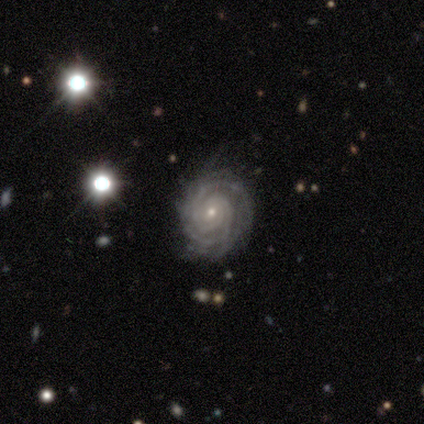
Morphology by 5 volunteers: A featured or disk galaxy (60%) with no bar (67%), more than 4 (67%) tight (67%) spiral arms (100%) and a small central bulge (100%).

Vote fractions:
- Smooth or featured? featured or disk: 60% / smooth: 40% / star or artifact: 0%
- Edge-on disk? no: 100% / yes: 0%
- Bar? no: 67% / strong: 33% / weak: 0%
- Spiral arms? yes: 100% / no: 0%
- Spiral winding? tight: 67% / loose: 33% / medium: 0%
- Spiral arm count? more than 4: 67% / 3: 33% / 1: 0% / 2: 0% / 4: 0% / can't tell: 0%
- Bulge size? small: 100% / dominant: 0% / large: 0% / moderate: 0% / none: 0%
- Merging? none: 80% / minor disturbance: 20% / major disturbance: 0% / merger: 0%